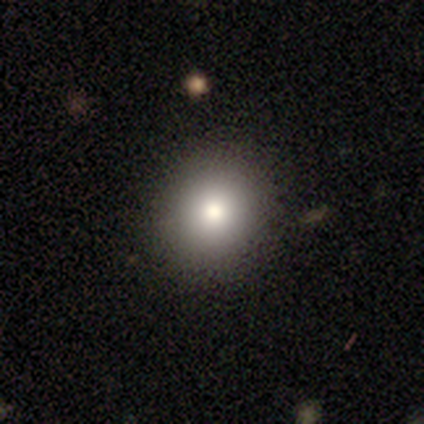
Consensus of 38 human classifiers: Smooth or featured? 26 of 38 (68%) said smooth. How rounded? 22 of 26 (85%) said round. Merging? 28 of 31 (90%) said none.